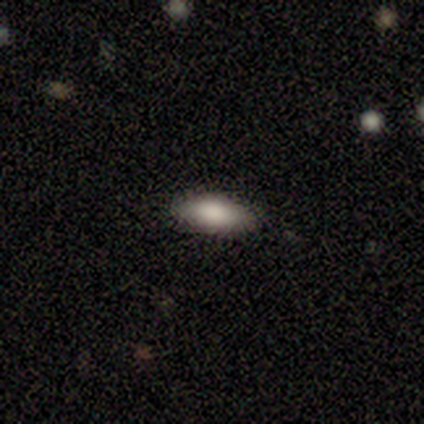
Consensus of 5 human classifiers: Smooth or featured?
  - smooth: 100% *
  - featured or disk: 0%
  - star or artifact: 0%
How rounded?
  - in between: 80% *
  - cigar-shaped: 20%
  - round: 0%
Merging?
  - none: 80% *
  - minor disturbance: 20%
  - major disturbance: 0%
  - merger: 0%